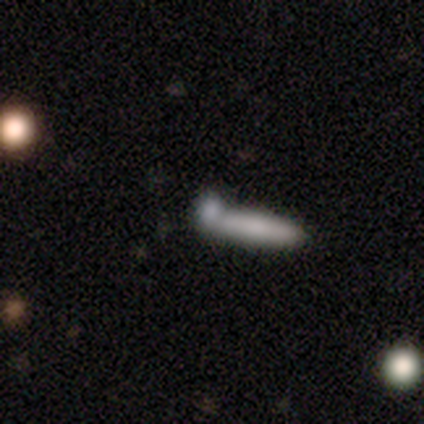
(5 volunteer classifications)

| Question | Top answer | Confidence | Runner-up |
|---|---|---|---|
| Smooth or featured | smooth | 100% | — |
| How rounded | cigar-shaped | 100% | — |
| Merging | none | 60% | merger (40%) |